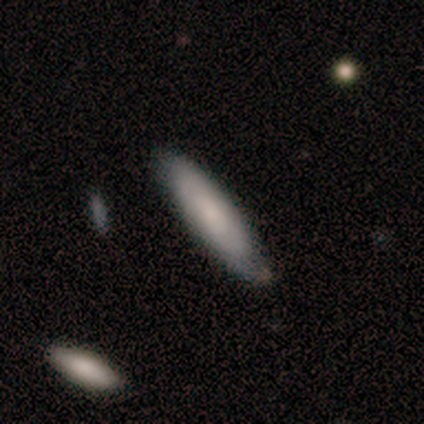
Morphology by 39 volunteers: A smooth galaxy with no disk features (67%) that is cigar-shaped (88%). Merging: none (74%).